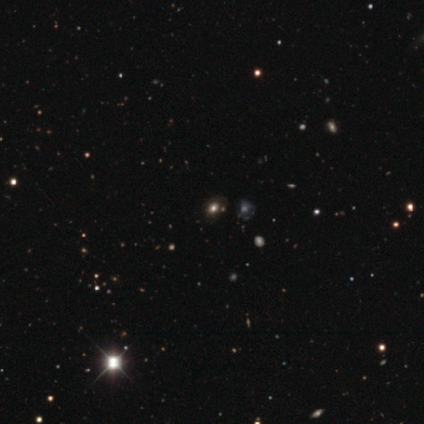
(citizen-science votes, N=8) Volunteers were most divided on "merging": major disturbance: 50%, none: 33%, minor disturbance: 17%, merger: 0%. More confident: how rounded — in between (100%); smooth or featured — smooth (50%).